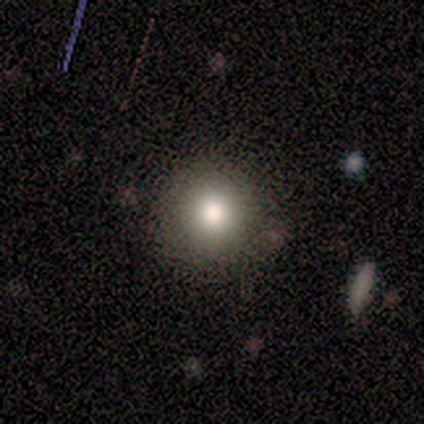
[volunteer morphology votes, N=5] A smooth galaxy with no disk features (100%) that is round (100%). Merging: none (80%).